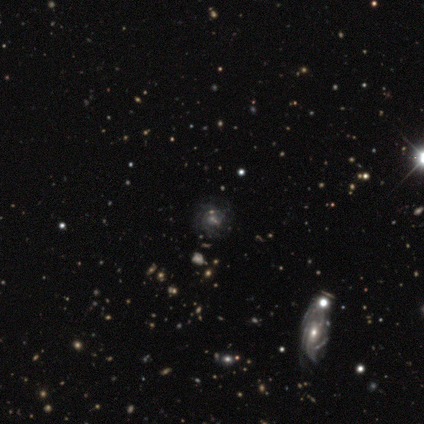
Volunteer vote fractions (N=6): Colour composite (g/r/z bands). It shows a featured or disk galaxy (100%) with no bar (67%), tight (100%) spiral arms (67%) and a small central bulge (50%). Merging: none (67%).